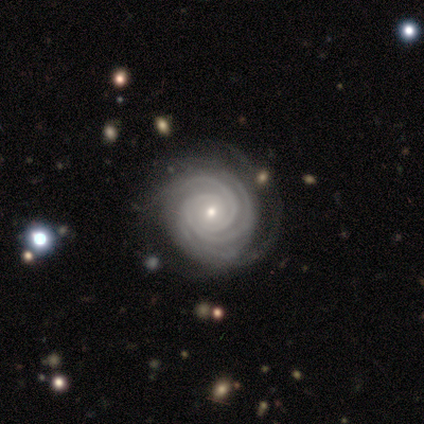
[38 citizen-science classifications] smooth_or_featured: featured or disk (p=0.95) [alt: star or artifact p=0.05]
disk_edge_on: no (p=1.00)
bar: no (p=0.58) [alt: weak p=0.31]
has_spiral_arms: yes (p=0.97) [alt: no p=0.03]
spiral_winding: tight (p=0.89) [alt: medium p=0.11]
spiral_arm_count: 3 (p=0.46) [alt: 4 p=0.26]
bulge_size: small (p=0.72) [alt: moderate p=0.25]
merging: none (p=0.83) [alt: minor disturbance p=0.14]